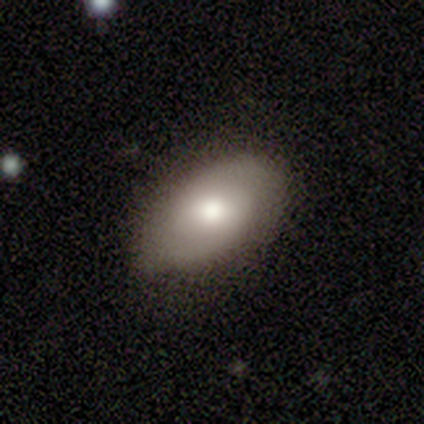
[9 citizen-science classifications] smooth_or_featured: smooth (p=0.56) [alt: featured or disk p=0.44]
how_rounded: in between (p=1.00)
merging: none (p=0.56) [alt: minor disturbance p=0.33]